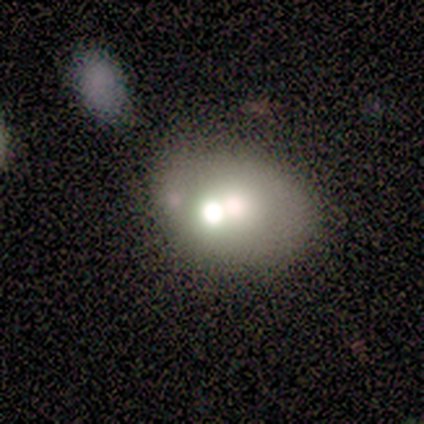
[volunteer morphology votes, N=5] This is likely a featured or disk galaxy (60%). It is clearly not viewed edge-on (100%). Bar: clearly no (100%). Spiral arm pattern: clearly no (100%). Central bulge: marginally large (33%, tied with moderate and small). Merging: marginally none (40%, tied with merger).